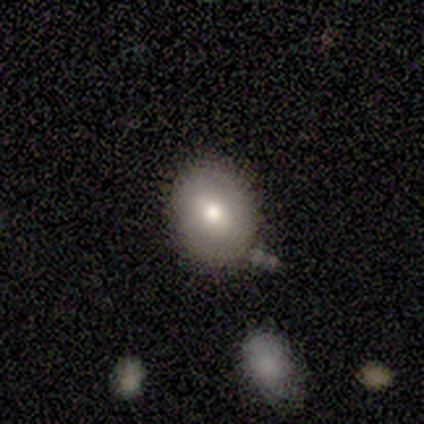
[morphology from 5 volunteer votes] This is clearly a smooth galaxy (80%). How rounded: likely in between (75%). Merging: clearly none (80%).